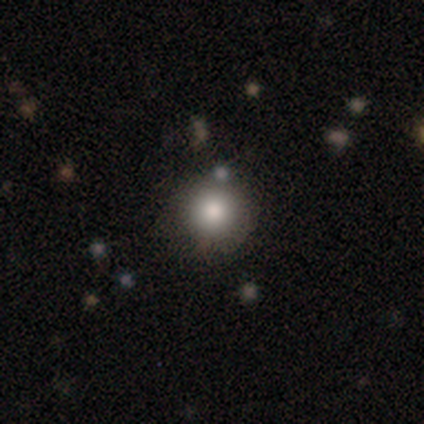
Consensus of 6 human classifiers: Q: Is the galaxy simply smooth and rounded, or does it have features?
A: smooth — 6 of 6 (100%).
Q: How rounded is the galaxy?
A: round — 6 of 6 (100%).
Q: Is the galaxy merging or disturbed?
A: none — 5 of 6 (83%).